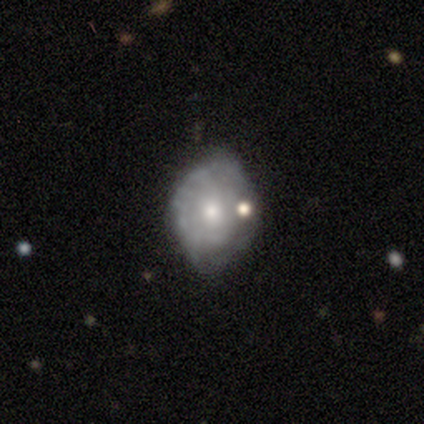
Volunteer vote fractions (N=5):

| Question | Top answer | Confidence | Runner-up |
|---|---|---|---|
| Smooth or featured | smooth | 60% | featured or disk (40%) |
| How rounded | round | 67% | in between (33%) |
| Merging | none | 40% | tied: minor disturbance (40%) |